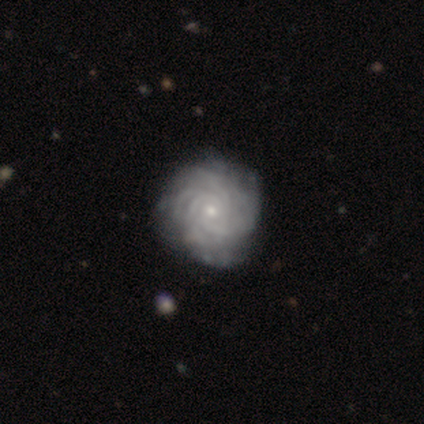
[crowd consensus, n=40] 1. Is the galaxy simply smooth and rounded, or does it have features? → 92% featured or disk, 8% smooth, 0% star or artifact.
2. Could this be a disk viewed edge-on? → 100% no, 0% yes.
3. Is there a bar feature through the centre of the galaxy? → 81% no, 14% weak, 5% strong.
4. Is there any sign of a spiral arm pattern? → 97% yes, 3% no.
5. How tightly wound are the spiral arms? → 89% tight, 8% medium, 3% loose.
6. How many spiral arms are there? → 44% can't tell, 19% 4, 17% 3, 17% more than 4, 3% 2, 0% 1.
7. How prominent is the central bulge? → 81% small, 11% moderate, 5% none, 3% large, 0% dominant.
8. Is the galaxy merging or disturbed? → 60% none, 10% minor disturbance, 2% major disturbance, 2% merger.